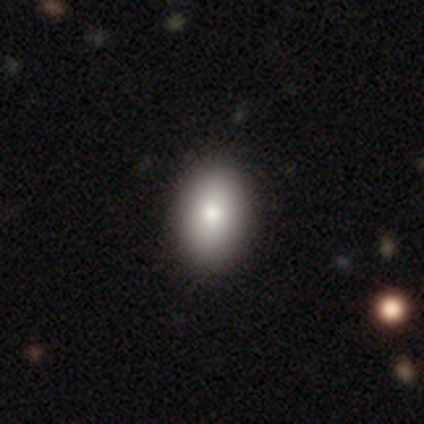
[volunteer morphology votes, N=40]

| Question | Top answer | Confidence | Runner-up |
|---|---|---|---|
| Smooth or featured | smooth | 88% | featured or disk (8%) |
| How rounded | in between | 74% | round (26%) |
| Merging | none | 71% | merger (3%) |